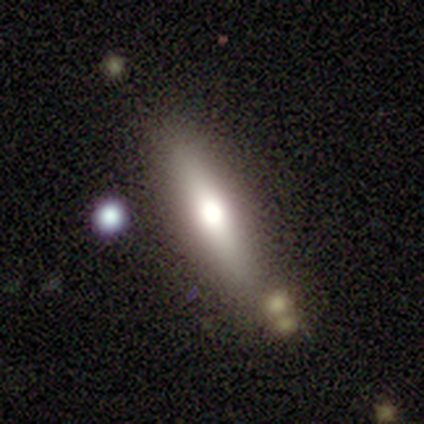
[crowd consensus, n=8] Overall: featured or disk (75%). Edge-on disk: yes (67%; no 33%). Edge-on bulge: rounded (75%). Merging: none (100%).